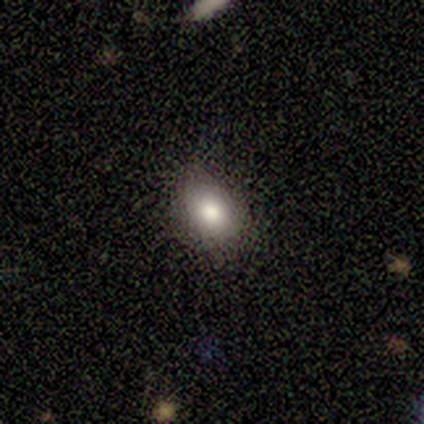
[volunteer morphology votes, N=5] Smooth or featured? smooth (80%)
How rounded? round (50%, tied with in between)
Merging? minor disturbance (60%)